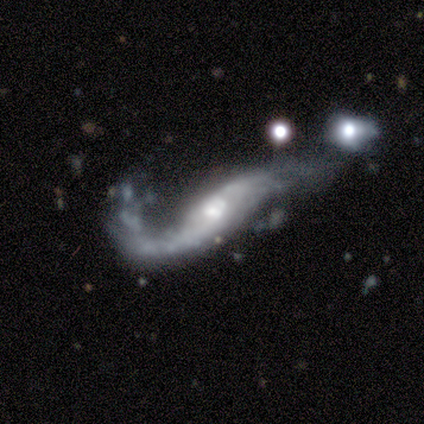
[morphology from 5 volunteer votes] smooth_or_featured: featured or disk (p=1.00)
disk_edge_on: no (p=1.00)
bar: no (p=0.60) [alt: strong p=0.20]
has_spiral_arms: yes (p=0.60) [alt: no p=0.40]
spiral_winding: loose (p=1.00)
spiral_arm_count: 2 (p=1.00)
bulge_size: moderate (p=0.60) [alt: large p=0.20]
merging: major disturbance (p=0.80) [alt: merger p=0.20]